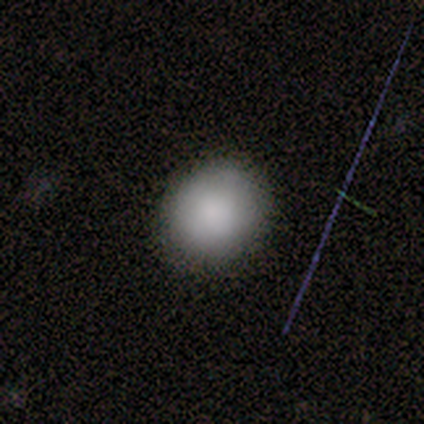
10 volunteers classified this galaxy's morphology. Smooth or featured? smooth (90%)
How rounded? round (89%)
Merging? none (100%)